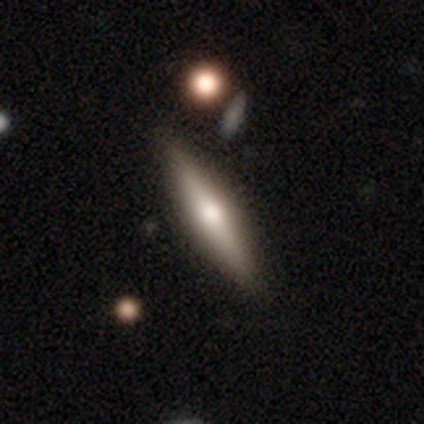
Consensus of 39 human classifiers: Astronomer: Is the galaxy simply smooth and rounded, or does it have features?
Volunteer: featured or disk — 74%.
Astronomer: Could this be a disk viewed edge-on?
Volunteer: yes — 100%.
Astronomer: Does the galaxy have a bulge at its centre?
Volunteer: rounded — 86%.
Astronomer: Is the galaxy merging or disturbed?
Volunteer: none — 78%.